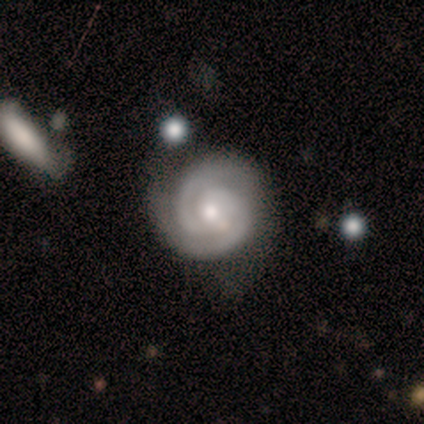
Smooth or featured? 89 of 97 (92%) said featured or disk. Edge-on disk? 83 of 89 (93%) said no. Bar? 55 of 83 (66%) said no. Spiral arms? 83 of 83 (100%) said yes. Spiral winding? 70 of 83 (84%) said tight. Spiral arm count? 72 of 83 (87%) said 2. Bulge size? 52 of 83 (63%) said moderate. Merging? 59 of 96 (61%) said none.